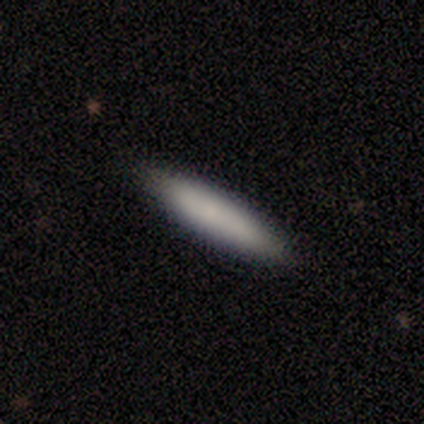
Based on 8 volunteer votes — smooth 88%, featured or disk 12%, star or artifact 0%. Down the decision tree: how rounded — cigar-shaped (86%); merging — none (88%).